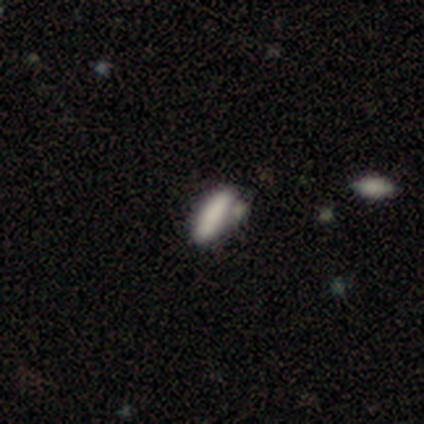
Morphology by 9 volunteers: type=smooth (67%); roundness=in between (67%); merging=none (56%).